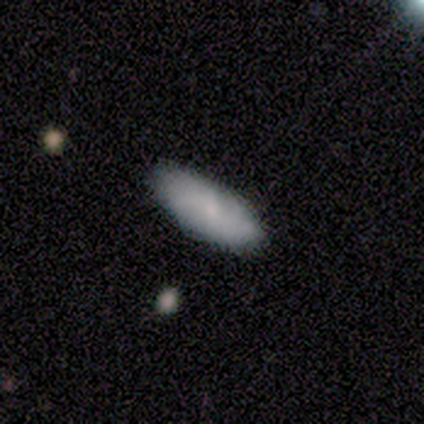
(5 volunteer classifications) This appears to be a smooth galaxy with no disk features (100%) that is in between round and cigar-shaped (60%). Merging: none (100%).